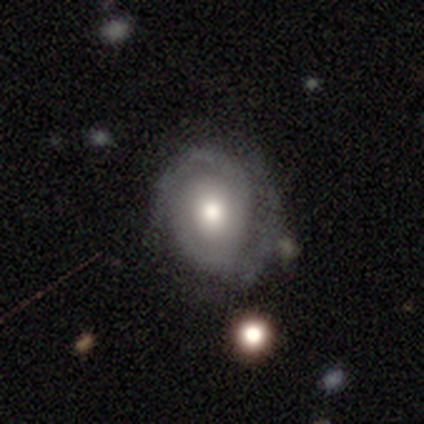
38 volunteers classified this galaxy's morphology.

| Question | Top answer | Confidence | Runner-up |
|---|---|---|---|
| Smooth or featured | featured or disk | 79% | star or artifact (13%) |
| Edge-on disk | no | 100% | — |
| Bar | no | 73% | weak (17%) |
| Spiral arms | yes | 97% | no (3%) |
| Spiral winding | tight | 52% | medium (28%) |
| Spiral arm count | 2 | 79% | can't tell (14%) |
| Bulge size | moderate | 67% | large (27%) |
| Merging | none | 70% | minor disturbance (21%) |